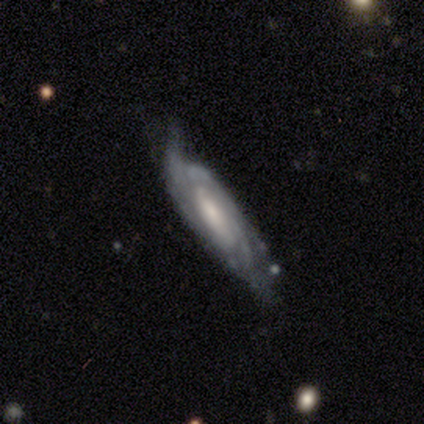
featured or disk 78%, smooth 14%, star or artifact 8%. Down the decision tree: edge-on disk — no (86%); bar — no (56%); spiral arms — yes (92%); spiral arm count — can't tell (39%); spiral winding — tight (43%); bulge size — moderate (52%); merging — none (38%).